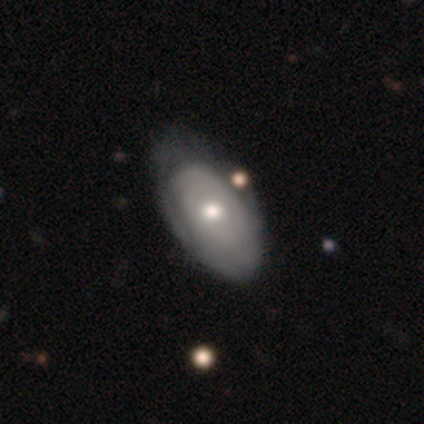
This is possibly a featured or disk galaxy (52%). It is clearly not viewed edge-on (100%). Bar: clearly no (90%). Spiral arm pattern: possibly no (52%). Central bulge: clearly moderate (81%). Merging: marginally none (36%).